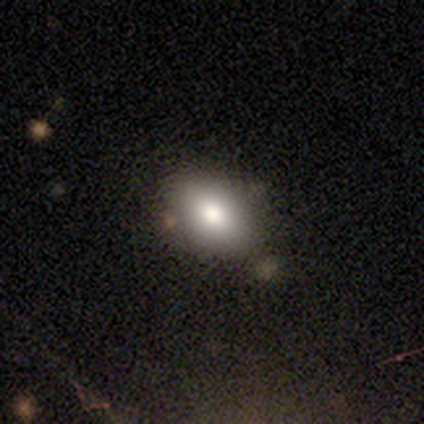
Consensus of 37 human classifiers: Morphology: type=smooth (78%); roundness=in between (90%); merging=none (60%).